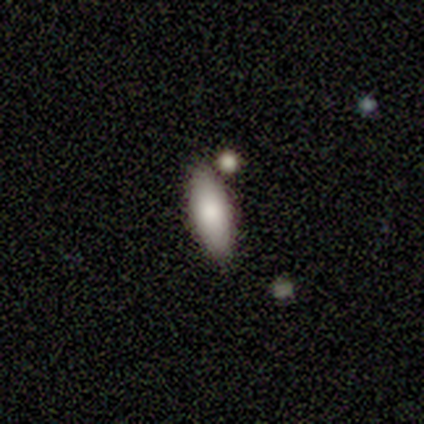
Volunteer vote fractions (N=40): This appears to be a smooth galaxy with no disk features (85%) that is in between round and cigar-shaped (76%). Merging: none (76%).